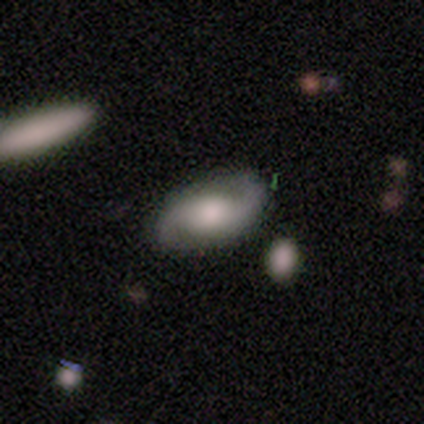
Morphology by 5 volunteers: A featured or disk galaxy (80%) with no bar (75%), 2 (100%) medium (50%, tied with loose) spiral arms (100%) and a moderate central bulge (50%).

Vote fractions:
- Smooth or featured? featured or disk: 80% / smooth: 20% / star or artifact: 0%
- Edge-on disk? no: 100% / yes: 0%
- Bar? no: 75% / weak: 25% / strong: 0%
- Spiral arms? yes: 100% / no: 0%
- Spiral winding? medium: 50% (tied) / loose: 50% (tied) / tight: 0%
- Spiral arm count? 2: 100% / 1: 0% / 3: 0% / 4: 0% / more than 4: 0% / can't tell: 0%
- Bulge size? moderate: 50% / large: 25% / small: 25% / dominant: 0% / none: 0%
- Merging? none: 80% / minor disturbance: 20% / major disturbance: 0% / merger: 0%